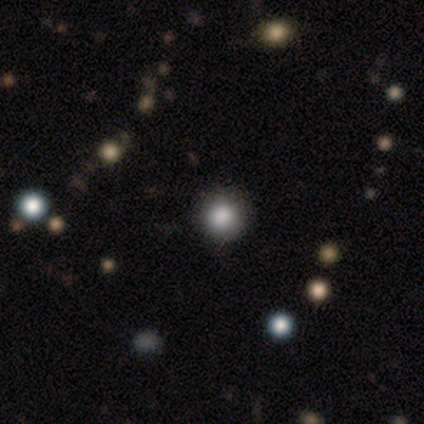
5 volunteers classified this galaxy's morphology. Volunteers were most divided on "smooth or featured": smooth: 60%, star or artifact: 40%, featured or disk: 0%. More confident: how rounded — round (100%); merging — none (100%).